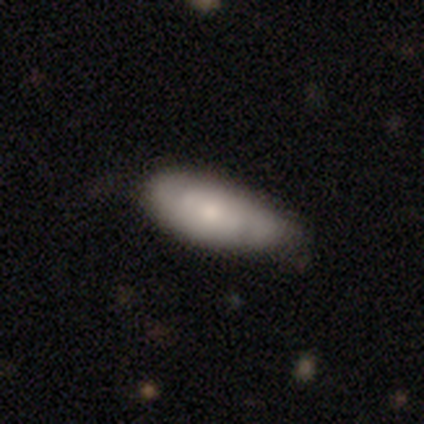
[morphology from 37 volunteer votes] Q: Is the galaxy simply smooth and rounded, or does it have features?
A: smooth — 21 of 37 (57%).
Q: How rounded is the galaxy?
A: in between — 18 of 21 (86%).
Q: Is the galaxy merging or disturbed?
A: none — 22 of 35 (63%).